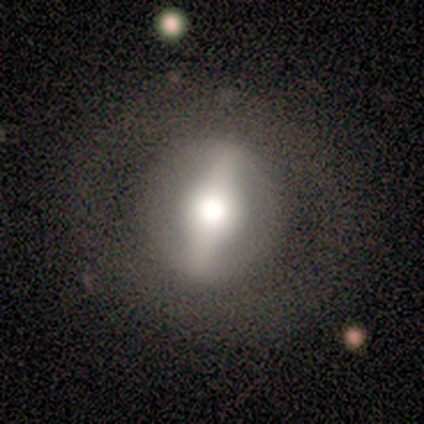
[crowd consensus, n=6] Smooth or featured: featured or disk — 50% (star or artifact — 33%)
Edge-on disk: no — 100%
Bar: strong — 100%
Spiral arms: no — 100%
Bulge size: large — 67% (moderate — 33%)
Merging: none — 100%